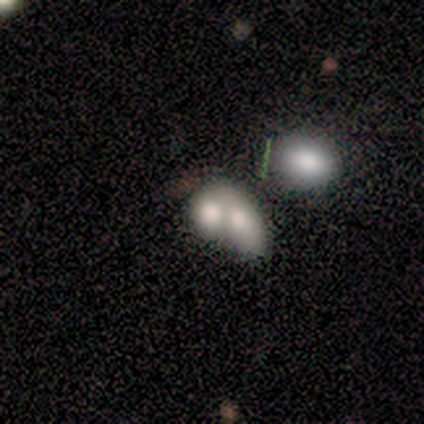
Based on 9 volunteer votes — Smooth or featured?
  - smooth: 78% *
  - featured or disk: 11%
  - star or artifact: 11%
How rounded?
  - in between: 86% *
  - round: 14%
  - cigar-shaped: 0%
Merging?
  - merger: 100% *
  - none: 0%
  - minor disturbance: 0%
  - major disturbance: 0%